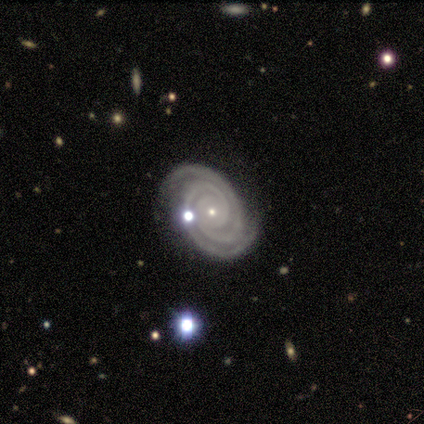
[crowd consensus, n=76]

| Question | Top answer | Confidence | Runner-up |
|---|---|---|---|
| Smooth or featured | featured or disk | 93% | smooth (5%) |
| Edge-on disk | no | 97% | yes (3%) |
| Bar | no | 86% | weak (10%) |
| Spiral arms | yes | 100% | — |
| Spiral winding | tight | 91% | medium (9%) |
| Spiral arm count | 2 | 84% | 3 (9%) |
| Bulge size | small | 83% | moderate (14%) |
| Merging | none | 76% | minor disturbance (15%) |